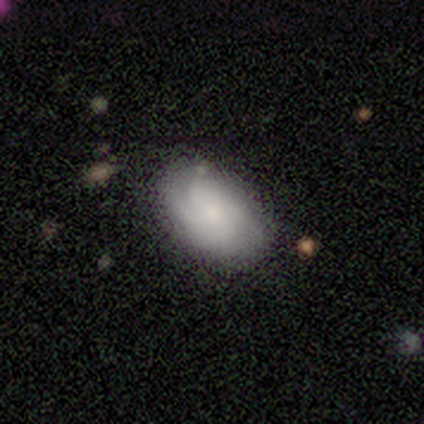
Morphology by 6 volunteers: This appears to be a featured or disk galaxy (67%) with no bar (100%), 2 (25%, tied with 3, 4 and more than 4) tight (75%) spiral arms (100%) and a moderate central bulge (50%, tied with small). Merging: none (100%).